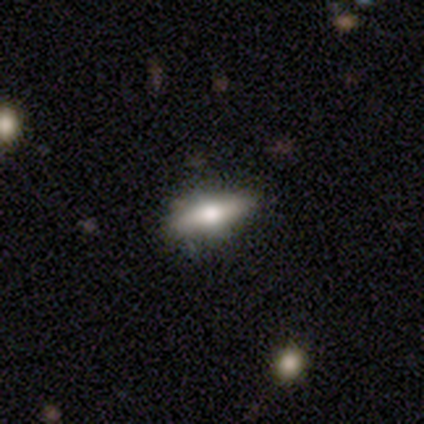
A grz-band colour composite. It shows a smooth galaxy with no disk features (100%) that is cigar-shaped (80%). Merging: none (100%).